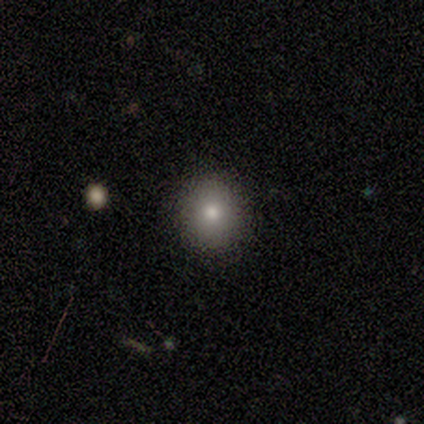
Smooth or featured? 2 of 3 (67%) said star or artifact.